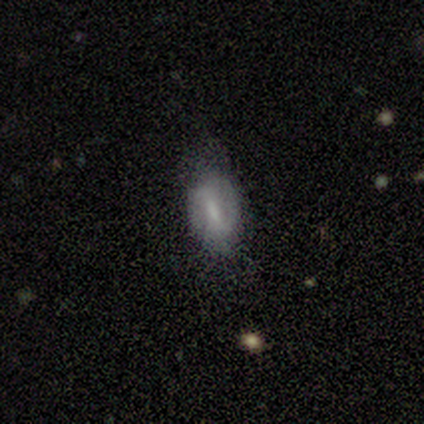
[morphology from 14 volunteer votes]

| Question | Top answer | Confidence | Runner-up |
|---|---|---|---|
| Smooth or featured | featured or disk | 50% | smooth (43%) |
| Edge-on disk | no | 100% | — |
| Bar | strong | 57% | weak (29%) |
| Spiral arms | yes | 57% | no (43%) |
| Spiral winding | tight | 50% | tied: medium (50%) |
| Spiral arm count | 2 | 75% | 1 (25%) |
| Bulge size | none | 43% | moderate (29%) |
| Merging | none | 54% | minor disturbance (46%) |